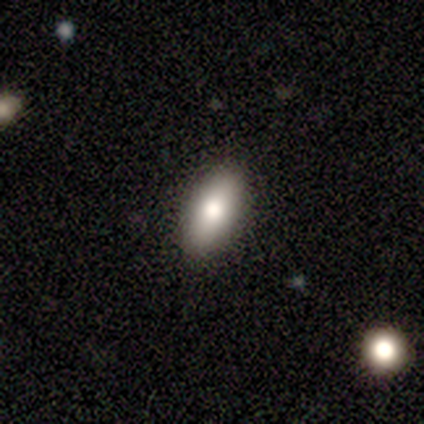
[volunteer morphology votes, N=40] smooth-or-featured: smooth: 72% | featured or disk: 20% | star or artifact: 8%
  how-rounded: in between: 86% | cigar-shaped: 10% | round: 3%
  merging: none: 95% | minor disturbance: 5% | major disturbance: 0% | merger: 0%